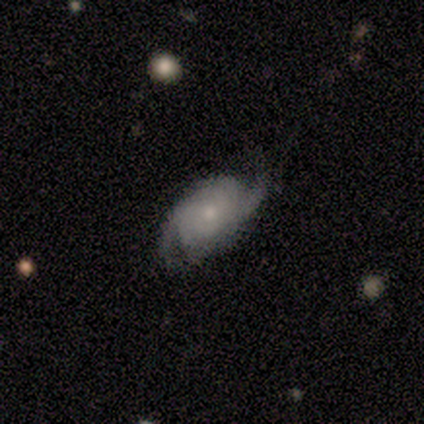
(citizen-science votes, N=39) Morphology: type=featured or disk (79%); edge-on=no (94%); bar=no (76%); spiral arms=yes (97%); winding=tight (46%); arm count=2 (68%); bulge=small (59%); merging=none (68%).